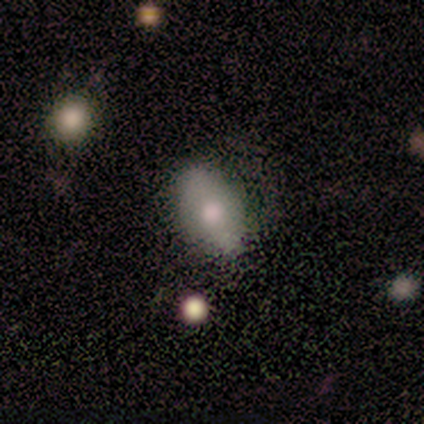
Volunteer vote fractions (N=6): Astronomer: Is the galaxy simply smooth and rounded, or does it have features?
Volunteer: smooth — 100%.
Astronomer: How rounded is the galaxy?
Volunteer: in between — 67%.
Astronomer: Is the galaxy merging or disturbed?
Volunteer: none — 50% (runner-up: minor disturbance, 33%).